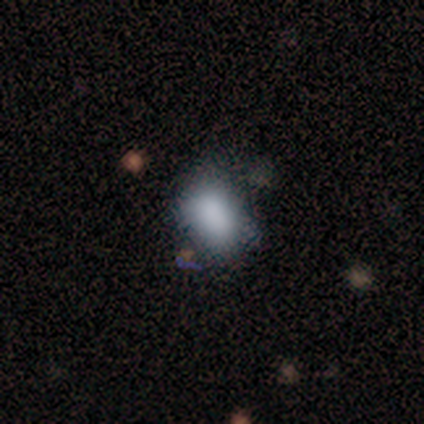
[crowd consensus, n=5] smooth-or-featured: smooth: 80% | featured or disk: 20% | star or artifact: 0%
  how-rounded: in between: 100% | round: 0% | cigar-shaped: 0%
  merging: minor disturbance: 60% | none: 40% | major disturbance: 0% | merger: 0%